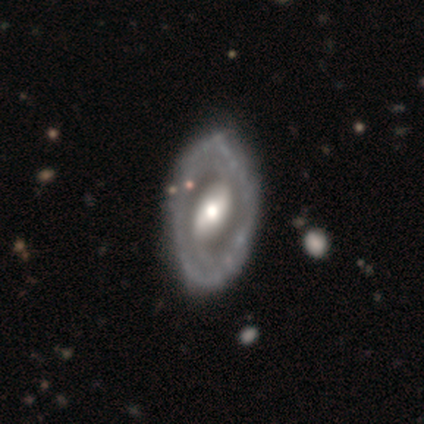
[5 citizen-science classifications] smooth-or-featured: featured or disk: 100% | smooth: 0% | star or artifact: 0%
  disk-edge-on: no: 100% | yes: 0%
    bar: strong: 100% | weak: 0% | no: 0%
    has-spiral-arms: no: 60% | yes: 40%
    bulge-size: moderate: 60% | large: 20% | small: 20% | dominant: 0% | none: 0%
  merging: none: 100% | minor disturbance: 0% | major disturbance: 0% | merger: 0%